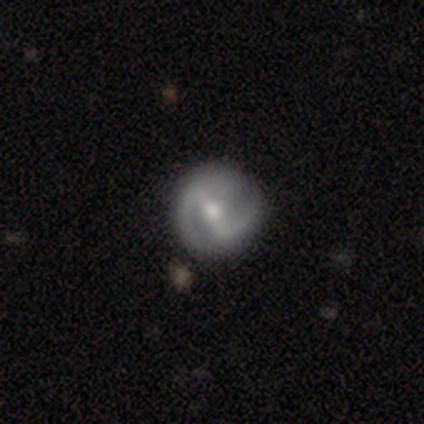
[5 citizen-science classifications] Q: Smooth or featured?
A: featured or disk (80%); runner-up: star or artifact (20%)
Q: Edge-on disk?
A: no (100%)
Q: Bar?
A: strong (75%); runner-up: weak (25%)
Q: Spiral arms?
A: yes (100%)
Q: Spiral winding?
A: tight (50%); tied with: medium (50%)
Q: Spiral arm count?
A: 2 (100%)
Q: Bulge size?
A: moderate (75%); runner-up: large (25%)
Q: Merging?
A: minor disturbance (75%); runner-up: none (25%)